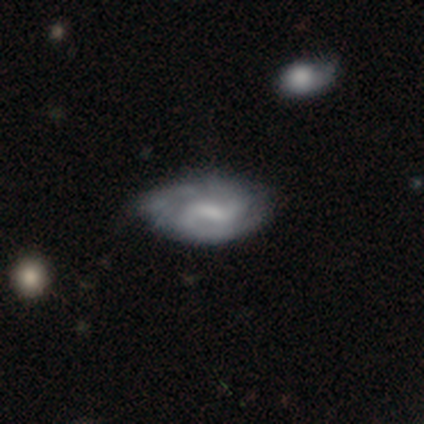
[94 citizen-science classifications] A featured or disk galaxy (67%) with a weak bar (63%), 2 (61%) medium (47%) spiral arms (85%) and no central bulge (42%).

Vote fractions:
- Smooth or featured? featured or disk: 67% / smooth: 27% / star or artifact: 6%
- Edge-on disk? no: 95% / yes: 5%
- Bar? weak: 63% / strong: 18% / no: 18%
- Spiral arms? yes: 85% / no: 15%
- Spiral winding? medium: 47% / loose: 29% / tight: 24%
- Spiral arm count? 2: 61% / can't tell: 27% / 3: 8% / 1: 2% / more than 4: 2% / 4: 0%
- Bulge size? none: 42% / small: 32% / moderate: 20% / large: 5% / dominant: 2%
- Merging? none: 55% / minor disturbance: 36% / major disturbance: 7% / merger: 2%